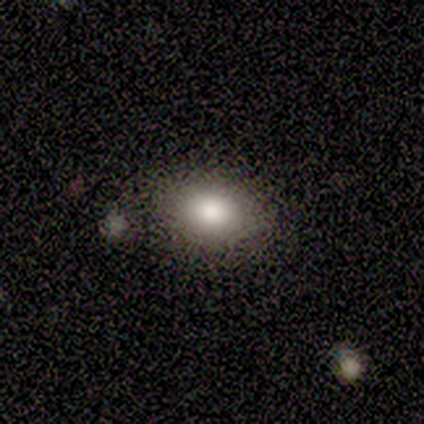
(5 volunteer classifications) Q: Smooth or featured?
A: smooth (40%); tied with: featured or disk (40%)
Q: How rounded?
A: in between (100%)
Q: Merging?
A: none (100%)